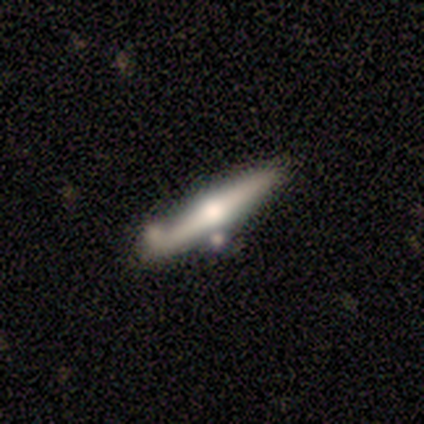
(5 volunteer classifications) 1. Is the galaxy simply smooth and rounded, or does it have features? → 60% featured or disk, 40% smooth, 0% star or artifact.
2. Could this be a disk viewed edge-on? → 100% yes, 0% no.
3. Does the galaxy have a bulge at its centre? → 100% rounded, 0% boxy, 0% none.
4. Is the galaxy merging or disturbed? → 100% none, 0% minor disturbance, 0% major disturbance, 0% merger.